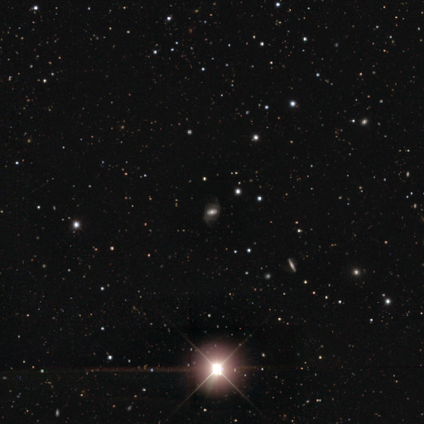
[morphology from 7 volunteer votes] This appears to be a star or artifact, not a galaxy (57%).